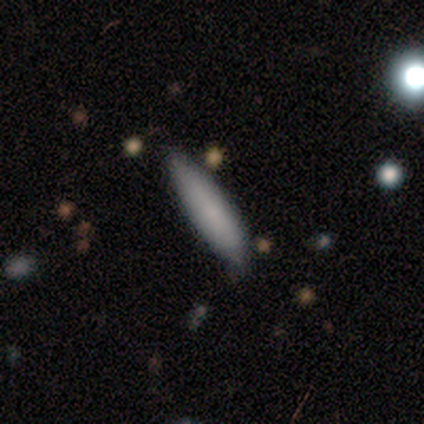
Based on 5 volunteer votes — This is clearly a smooth galaxy (80%). How rounded: possibly in between (50%, tied with cigar-shaped). Merging: likely none (60%).